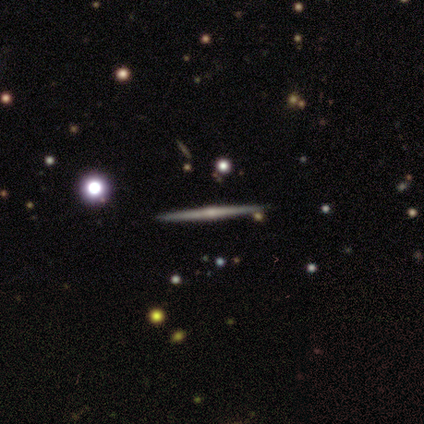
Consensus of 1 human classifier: Consensus on every question: smooth or featured — featured or disk (100%); edge-on disk — yes (100%); edge-on bulge — none (100%); merging — none (100%).